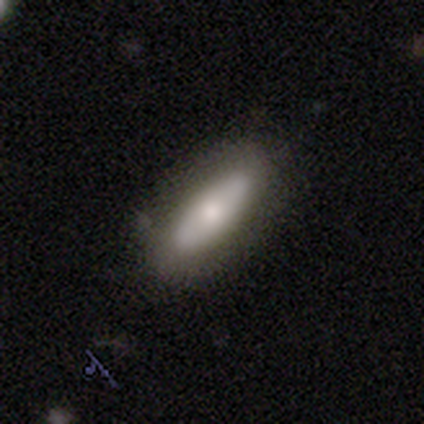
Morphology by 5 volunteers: Volunteers were most divided on "smooth or featured": smooth: 80%, featured or disk: 20%, star or artifact: 0%. More confident: how rounded — in between (100%); merging — none (80%).